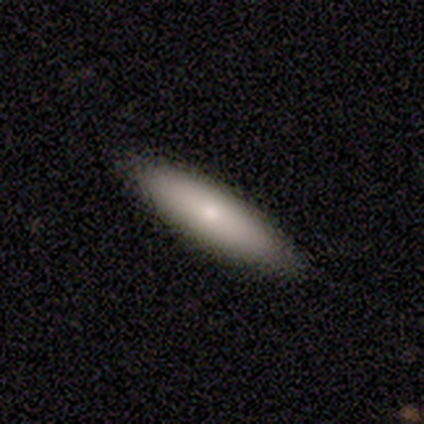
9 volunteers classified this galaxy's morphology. A smooth galaxy with no disk features (56%) that is in between round and cigar-shaped (60%). Merging: none (89%).